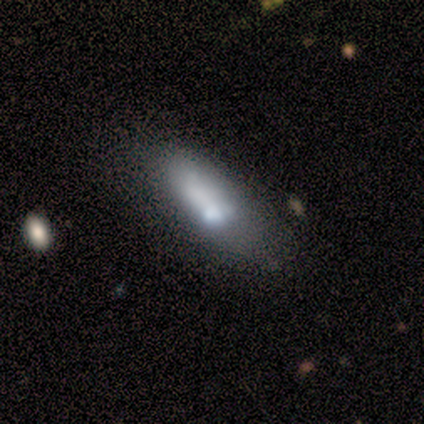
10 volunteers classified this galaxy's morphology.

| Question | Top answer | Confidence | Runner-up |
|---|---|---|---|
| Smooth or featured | featured or disk | 60% | smooth (30%) |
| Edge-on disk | no | 83% | yes (17%) |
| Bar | no | 80% | weak (20%) |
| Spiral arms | no | 100% | — |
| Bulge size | moderate | 60% | large (20%) |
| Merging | none | 67% | minor disturbance (33%) |